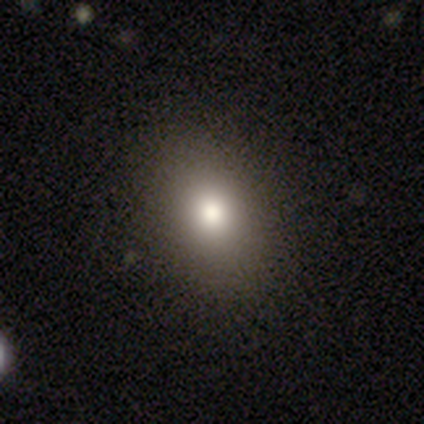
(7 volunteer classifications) This appears to be a smooth galaxy with no disk features (100%) that is in between round and cigar-shaped (57%). Merging: none (86%).